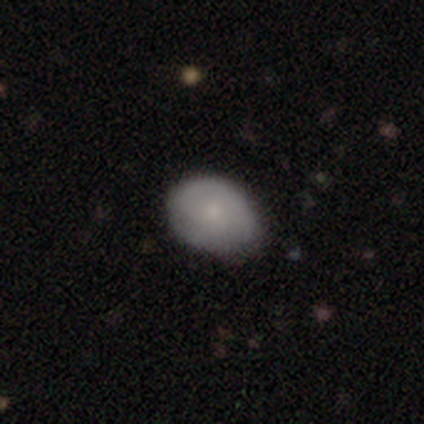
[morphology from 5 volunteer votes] Smooth or featured?
  - smooth: 60% *
  - featured or disk: 20%
  - star or artifact: 20%
How rounded?
  - in between: 67% *
  - round: 33%
  - cigar-shaped: 0%
Merging?
  - none: 75% *
  - minor disturbance: 25%
  - major disturbance: 0%
  - merger: 0%